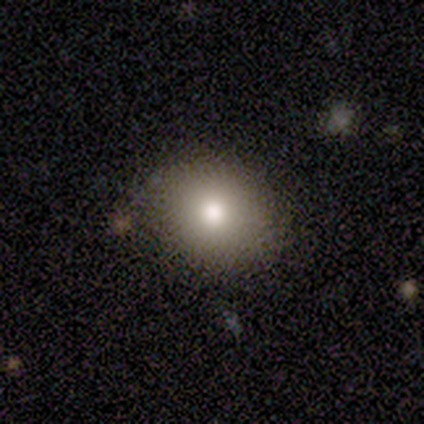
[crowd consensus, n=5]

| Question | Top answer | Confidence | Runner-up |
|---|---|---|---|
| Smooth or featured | smooth | 80% | featured or disk (20%) |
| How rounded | round | 75% | in between (25%) |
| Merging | none | 80% | minor disturbance (20%) |